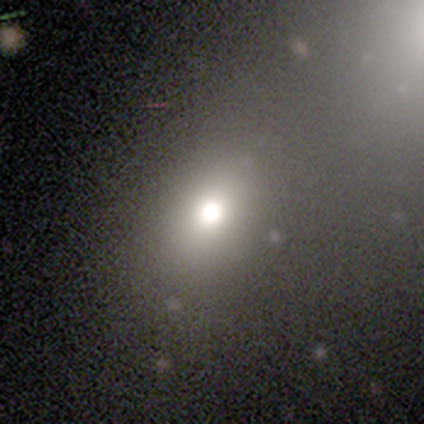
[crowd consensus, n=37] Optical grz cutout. It shows a smooth galaxy with no disk features (70%) that is in between round and cigar-shaped (77%). Merging: none (53%).